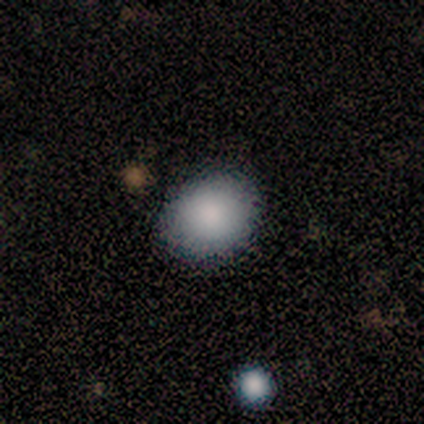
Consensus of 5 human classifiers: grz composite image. It shows a smooth galaxy with no disk features (100%) that is in between round and cigar-shaped (80%). Merging: none (100%).